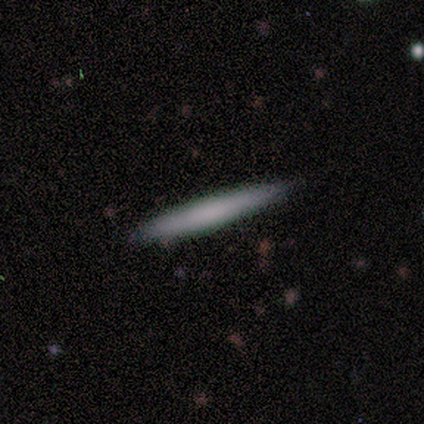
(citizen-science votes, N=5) Smooth or featured? smooth (100%)
How rounded? cigar-shaped (100%)
Merging? none (80%)